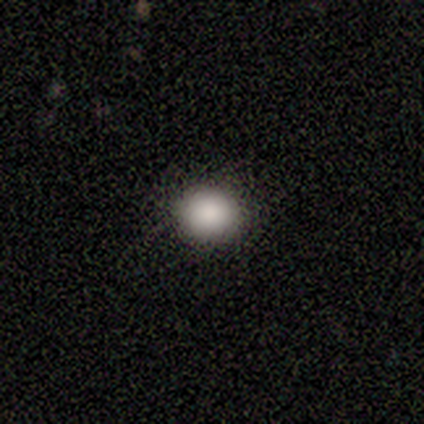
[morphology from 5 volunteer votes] Smooth or featured?
  - smooth: 80% *
  - featured or disk: 20%
  - star or artifact: 0%
How rounded?
  - round: 75% *
  - in between: 25%
  - cigar-shaped: 0%
Merging?
  - none: 100% *
  - minor disturbance: 0%
  - major disturbance: 0%
  - merger: 0%